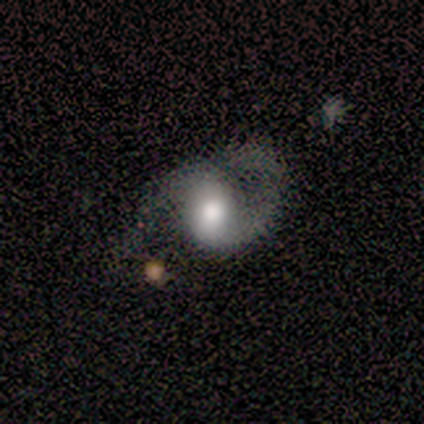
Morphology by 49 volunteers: Smooth or featured? 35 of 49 (71%) said featured or disk. Edge-on disk? 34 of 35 (97%) said no. Bar? 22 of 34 (65%) said no. Spiral arms? 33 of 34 (97%) said yes. Spiral winding? 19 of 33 (58%) said medium. Spiral arm count? 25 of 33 (76%) said 2. Bulge size? 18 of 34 (53%) said large. Merging? 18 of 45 (40%) said none.